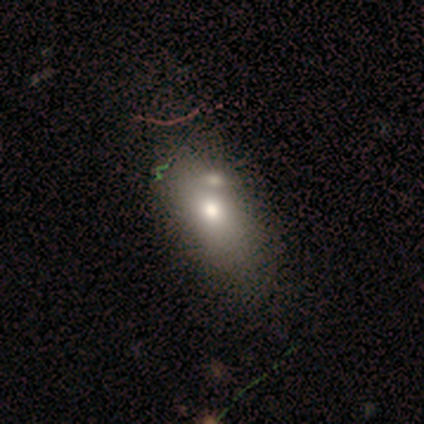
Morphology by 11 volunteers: Smooth or featured? 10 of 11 (91%) said smooth. How rounded? 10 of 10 (100%) said in between. Merging? 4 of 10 (40%) said none.